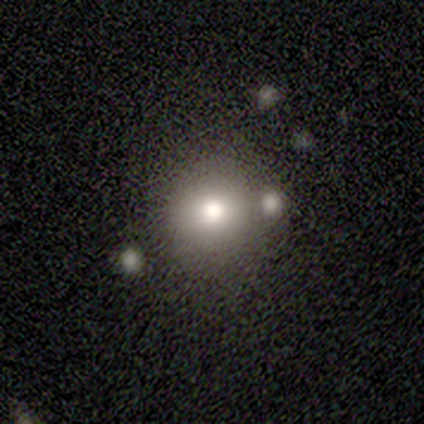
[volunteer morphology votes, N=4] This appears to be a smooth galaxy with no disk features (75%) that is round (100%). Merging: none (100%).